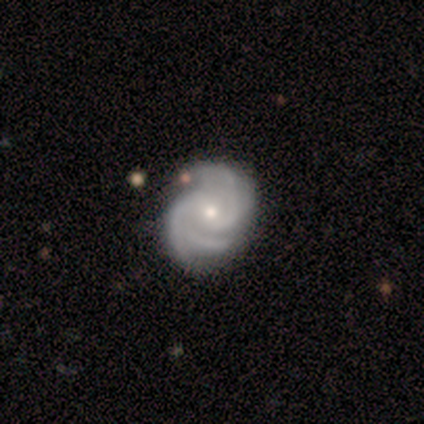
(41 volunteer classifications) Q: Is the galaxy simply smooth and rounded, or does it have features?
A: featured or disk — 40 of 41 (98%).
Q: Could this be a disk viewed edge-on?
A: no — 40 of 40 (100%).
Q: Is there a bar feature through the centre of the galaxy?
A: no — 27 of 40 (68%).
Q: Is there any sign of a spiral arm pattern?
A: yes — 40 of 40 (100%).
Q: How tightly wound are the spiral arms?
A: tight — 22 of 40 (55%).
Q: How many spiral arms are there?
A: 3 — 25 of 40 (62%).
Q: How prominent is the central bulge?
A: moderate — 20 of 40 (50%, tied with small).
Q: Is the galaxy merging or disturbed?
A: none — 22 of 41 (54%).